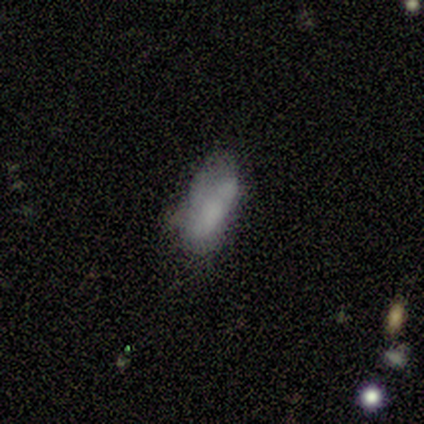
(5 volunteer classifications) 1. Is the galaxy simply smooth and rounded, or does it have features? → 100% smooth, 0% featured or disk, 0% star or artifact.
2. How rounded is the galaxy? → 80% in between, 20% cigar-shaped, 0% round.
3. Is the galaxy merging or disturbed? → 100% none, 0% minor disturbance, 0% major disturbance, 0% merger.